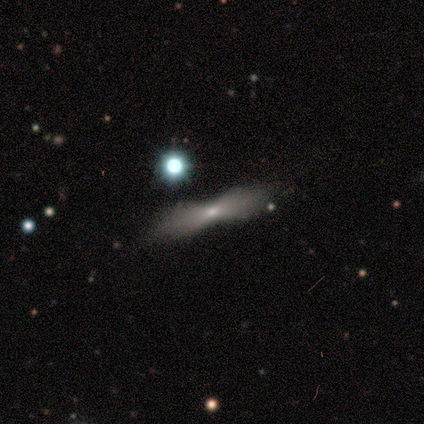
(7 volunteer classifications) Overall: smooth (57%; featured or disk 29%). How rounded: cigar-shaped (100%). Merging: none (50%; minor disturbance 33%).